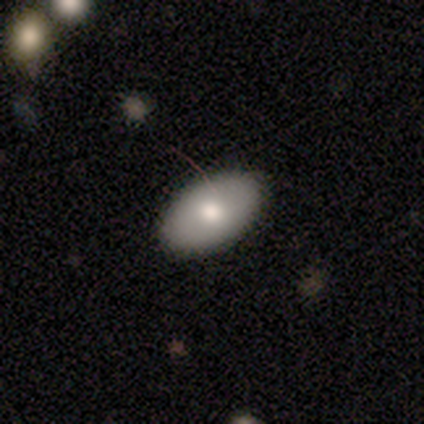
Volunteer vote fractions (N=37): Overall: smooth (78%). How rounded: in between (90%). Merging: none (94%).